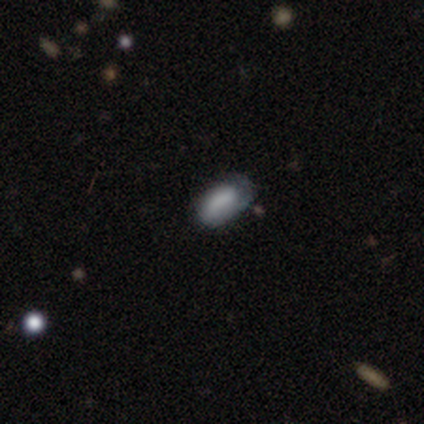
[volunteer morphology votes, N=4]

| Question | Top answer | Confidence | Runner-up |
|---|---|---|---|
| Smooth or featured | smooth | 100% | — |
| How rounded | in between | 100% | — |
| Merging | none | 75% | minor disturbance (25%) |